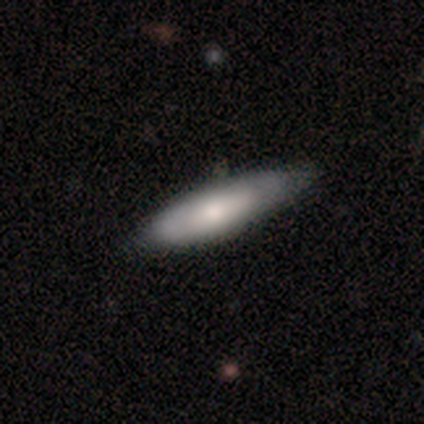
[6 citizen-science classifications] Smooth or featured? 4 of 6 (67%) said smooth. How rounded? 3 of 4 (75%) said in between. Merging? 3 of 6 (50%, tied with minor disturbance) said none.